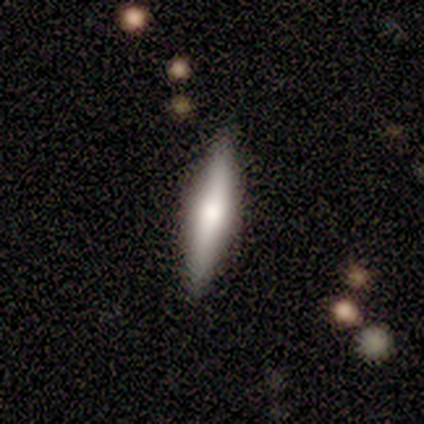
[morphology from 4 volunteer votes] This is likely a smooth galaxy (75%). How rounded: likely cigar-shaped (67%). Merging: likely none (75%).